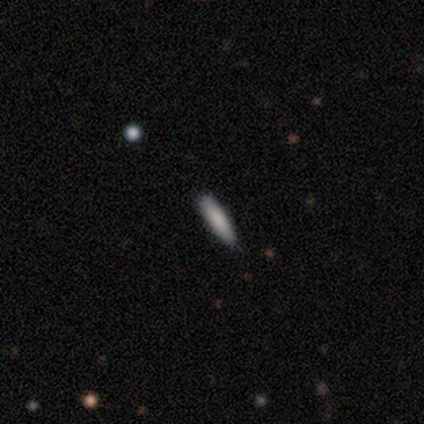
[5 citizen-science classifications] A smooth galaxy with no disk features (80%) that is cigar-shaped (100%).

Vote fractions:
- Smooth or featured? smooth: 80% / star or artifact: 20% / featured or disk: 0%
- How rounded? cigar-shaped: 100% / round: 0% / in between: 0%
- Merging? none: 100% / minor disturbance: 0% / major disturbance: 0% / merger: 0%